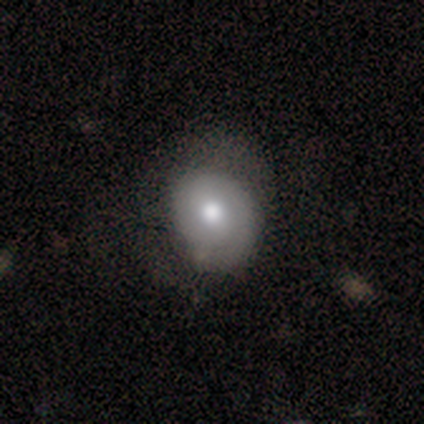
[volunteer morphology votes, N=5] smooth_or_featured: smooth (p=0.80) [alt: featured or disk p=0.20]
how_rounded: round (p=0.75) [alt: in between p=0.25]
merging: none (p=0.40) [tied with: minor disturbance p=0.40]